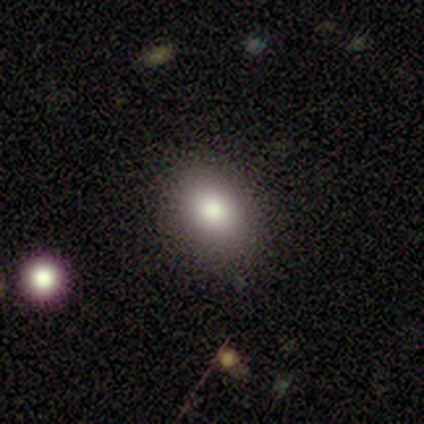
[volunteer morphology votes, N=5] smooth-or-featured: smooth: 100% | featured or disk: 0% | star or artifact: 0%
  how-rounded: in between: 80% | round: 20% | cigar-shaped: 0%
  merging: none: 100% | minor disturbance: 0% | major disturbance: 0% | merger: 0%